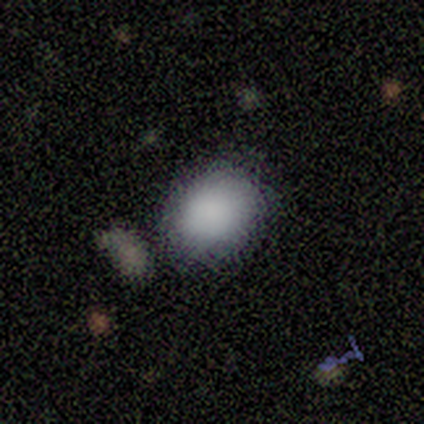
Consensus on every question: smooth or featured — smooth (100%); how rounded — round (100%); merging — none (100%).